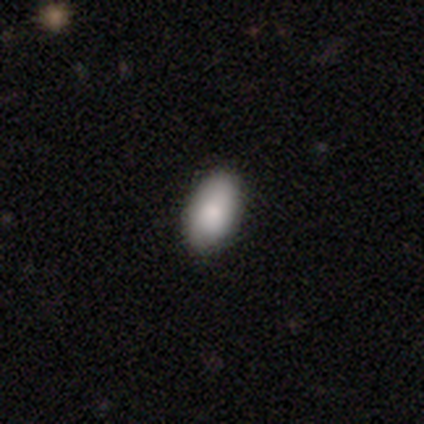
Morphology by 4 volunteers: smooth-or-featured: smooth: 100% | featured or disk: 0% | star or artifact: 0%
  how-rounded: in between: 100% | round: 0% | cigar-shaped: 0%
  merging: none: 100% | minor disturbance: 0% | major disturbance: 0% | merger: 0%